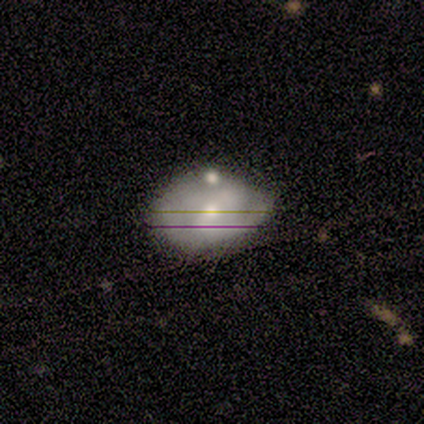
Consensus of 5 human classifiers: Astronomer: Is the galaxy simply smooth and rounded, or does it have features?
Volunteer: smooth — 60%.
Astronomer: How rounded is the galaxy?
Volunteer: in between — 100%.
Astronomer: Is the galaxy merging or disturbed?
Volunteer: none — 75%.